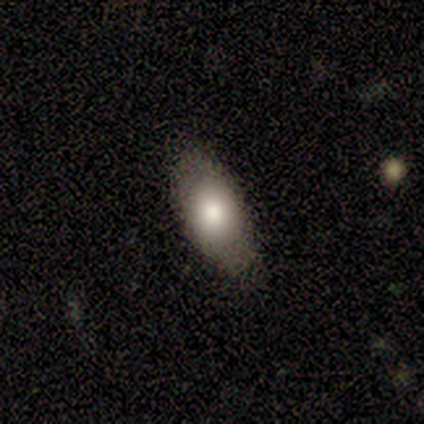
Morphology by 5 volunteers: Volunteers were most divided on "merging" (2-way tie): none: 40%, minor disturbance: 40%, merger: 20%, major disturbance: 0%. More confident: smooth or featured — smooth (100%); how rounded — in between (60%).